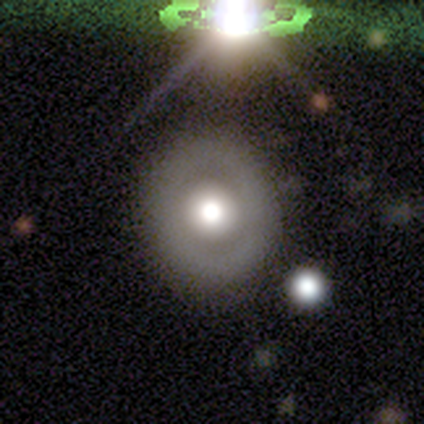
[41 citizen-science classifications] A featured or disk galaxy (63%) with no bar (100%), no spiral arms (92%) and a moderate central bulge (44%). Merging: none (74%).